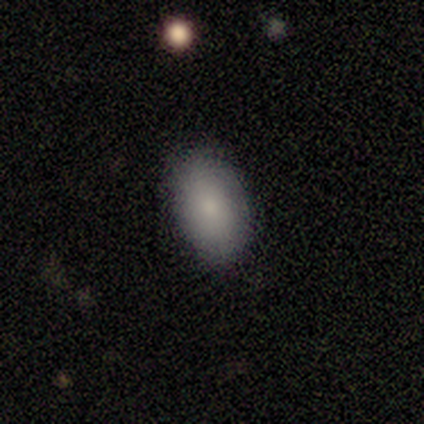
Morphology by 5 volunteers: smooth 100%, featured or disk 0%, star or artifact 0%. Down the decision tree: how rounded — in between (100%); merging — none (100%).